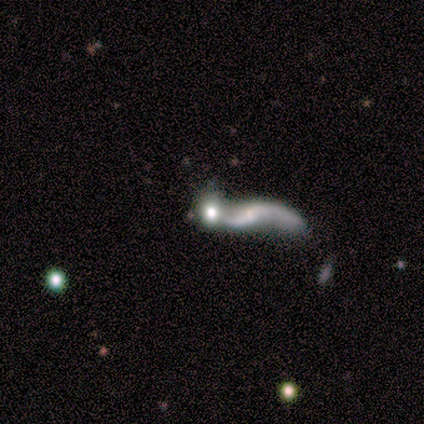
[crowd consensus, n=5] Smooth or featured? featured or disk (60%)
Edge-on disk? no (100%)
Bar? weak (67%)
Spiral arms? yes (100%)
Spiral winding? loose (100%)
Spiral arm count? 2 (100%)
Bulge size? small (67%)
Merging? merger (60%)